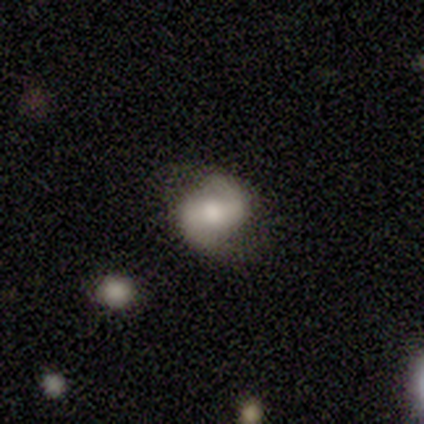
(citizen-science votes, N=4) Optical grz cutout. It shows a featured or disk galaxy (75%) with no bar (67%), 2 (100%) medium (50%, tied with loose) spiral arms (67%) and a moderate central bulge (67%). Merging: none (75%).